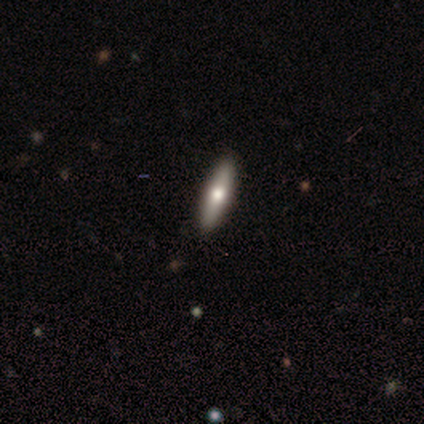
smooth_or_featured: smooth (p=0.67) [alt: featured or disk p=0.33]
how_rounded: cigar-shaped (p=1.00)
merging: none (p=0.89) [alt: minor disturbance p=0.11]